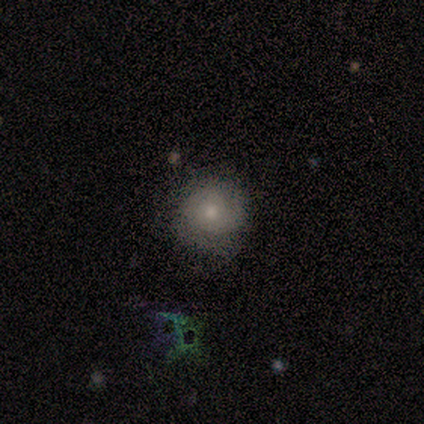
smooth 50%, featured or disk 43%, star or artifact 7%. Down the decision tree: how rounded — round (86%); merging — none (85%).